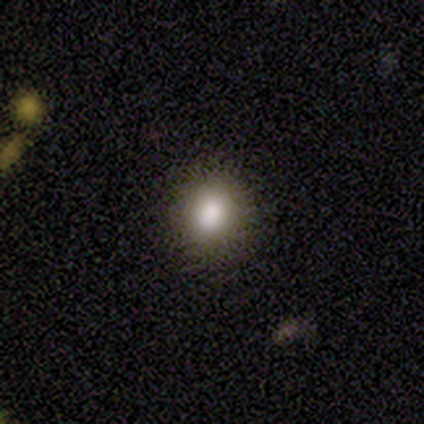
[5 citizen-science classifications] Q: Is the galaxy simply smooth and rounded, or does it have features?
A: smooth — 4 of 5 (80%).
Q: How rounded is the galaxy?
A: round — 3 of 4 (75%).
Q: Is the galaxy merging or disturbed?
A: none — 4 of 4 (100%).